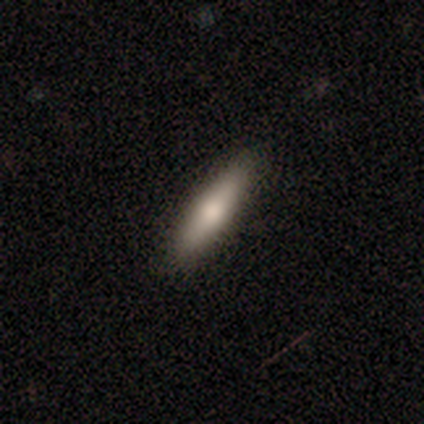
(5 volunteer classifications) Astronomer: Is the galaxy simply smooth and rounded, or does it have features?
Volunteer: smooth — 80%.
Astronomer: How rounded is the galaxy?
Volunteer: cigar-shaped — 75%.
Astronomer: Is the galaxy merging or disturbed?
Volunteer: none — 100%.